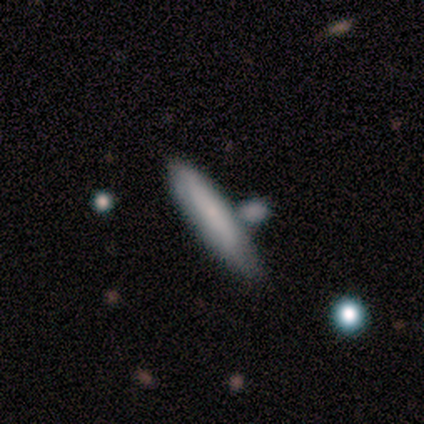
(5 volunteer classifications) Smooth or featured? smooth (100%)
How rounded? cigar-shaped (80%)
Merging? none (40%)